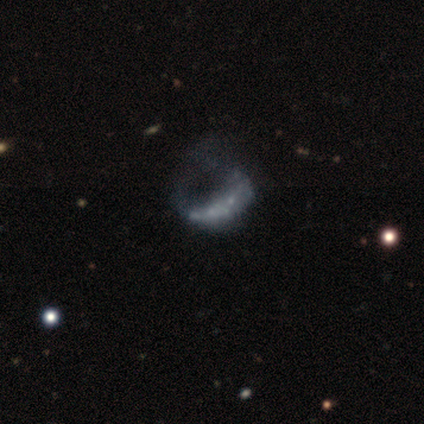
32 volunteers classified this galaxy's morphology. This is likely a featured or disk galaxy (62%). It is clearly not viewed edge-on (100%). Bar: clearly no (100%). Spiral arm pattern: likely no (75%). Central bulge: clearly none (100%). Merging: likely major disturbance (65%).